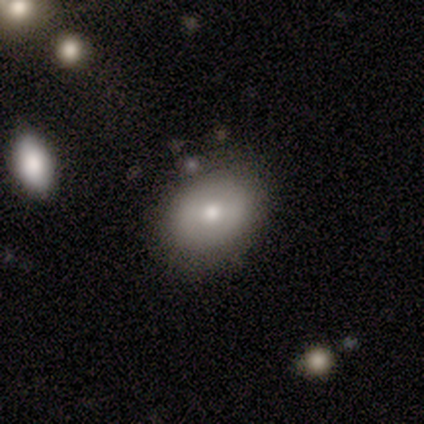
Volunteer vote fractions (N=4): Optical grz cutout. It shows a smooth galaxy with no disk features (50%) that is in between round and cigar-shaped (100%). Merging: none (67%).